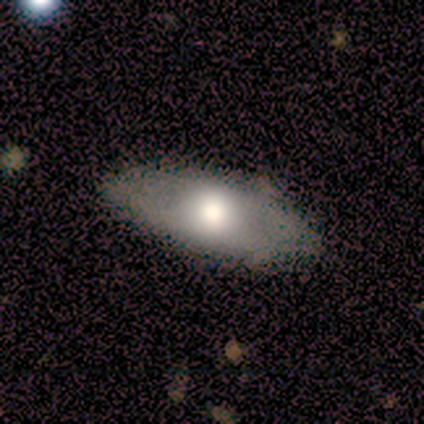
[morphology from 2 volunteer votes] Smooth or featured? smooth (50%, tied with featured or disk)
How rounded? in between (100%)
Merging? none (100%)